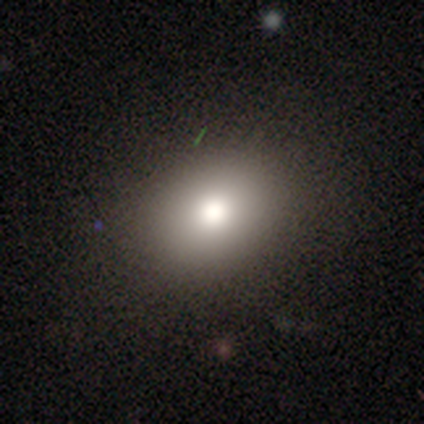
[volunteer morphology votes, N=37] Smooth or featured: smooth — 76% (star or artifact — 16%)
How rounded: round — 57% (in between — 43%)
Merging: none — 87% (minor disturbance — 6%)